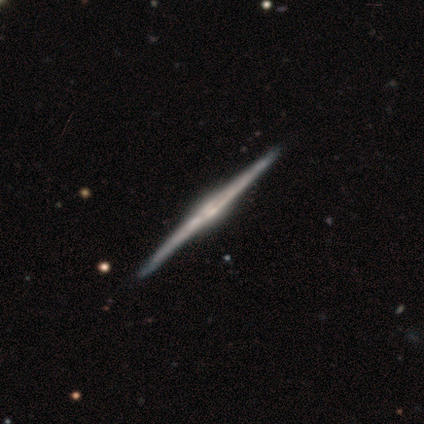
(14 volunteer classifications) A featured or disk galaxy (100%) viewed edge-on (100%) with a rounded central bulge (79%).

Vote fractions:
- Smooth or featured? featured or disk: 100% / smooth: 0% / star or artifact: 0%
- Edge-on disk? yes: 100% / no: 0%
- Edge-on bulge? rounded: 79% / boxy: 14% / none: 7%
- Merging? none: 100% / minor disturbance: 0% / major disturbance: 0% / merger: 0%